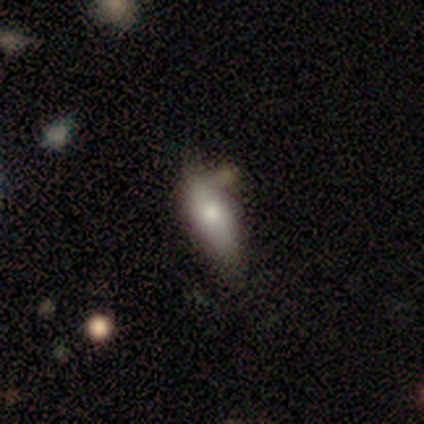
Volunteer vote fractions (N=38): Smooth or featured?
  - smooth: 68% *
  - featured or disk: 24%
  - star or artifact: 8%
How rounded?
  - in between: 62% *
  - cigar-shaped: 35%
  - round: 4%
Merging?
  - none: 63% *
  - minor disturbance: 26%
  - major disturbance: 6%
  - merger: 6%